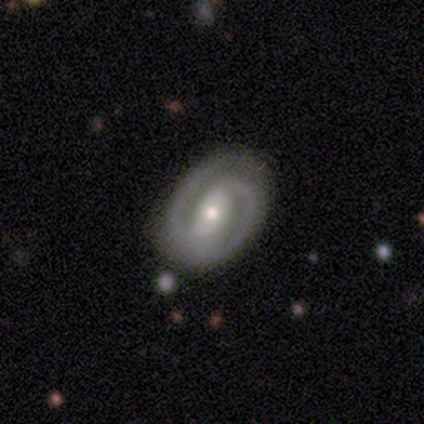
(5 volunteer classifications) smooth-or-featured: featured or disk: 100% | smooth: 0% | star or artifact: 0%
  disk-edge-on: no: 100% | yes: 0%
    bar: strong: 60% | weak: 40% | no: 0%
    has-spiral-arms: yes: 100% | no: 0%
      spiral-winding: medium: 60% | tight: 20% | loose: 20%
      spiral-arm-count: 2: 100% | 1: 0% | 3: 0% | 4: 0% | more than 4: 0% | can't tell: 0%
    bulge-size: moderate: 60% | small: 40% | dominant: 0% | large: 0% | none: 0%
  merging: none: 100% | minor disturbance: 0% | major disturbance: 0% | merger: 0%